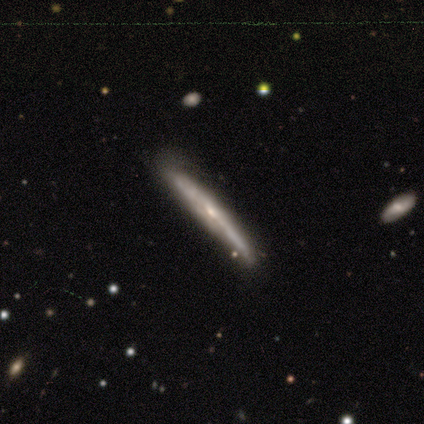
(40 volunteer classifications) featured or disk 85%, smooth 12%, star or artifact 2%. Down the decision tree: edge-on disk — yes (88%); edge-on bulge — none (47%); merging — none (56%).